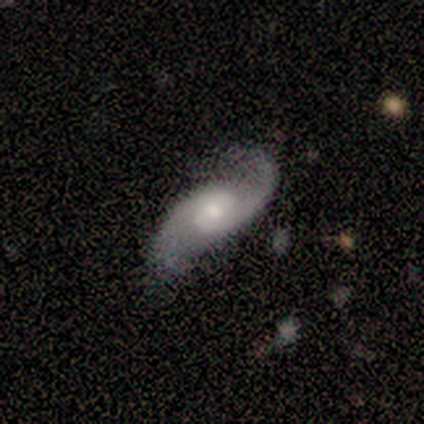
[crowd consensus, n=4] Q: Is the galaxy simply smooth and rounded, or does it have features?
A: featured or disk — 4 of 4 (100%).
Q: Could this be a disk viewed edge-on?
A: no — 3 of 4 (75%).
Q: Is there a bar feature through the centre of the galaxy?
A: weak — 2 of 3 (67%).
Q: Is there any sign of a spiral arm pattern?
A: yes — 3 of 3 (100%).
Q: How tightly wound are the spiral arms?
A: loose — 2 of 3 (67%).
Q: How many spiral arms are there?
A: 2 — 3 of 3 (100%).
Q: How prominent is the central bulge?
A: small — 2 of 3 (67%).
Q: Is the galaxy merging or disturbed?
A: none — 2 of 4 (50%, tied with minor disturbance).